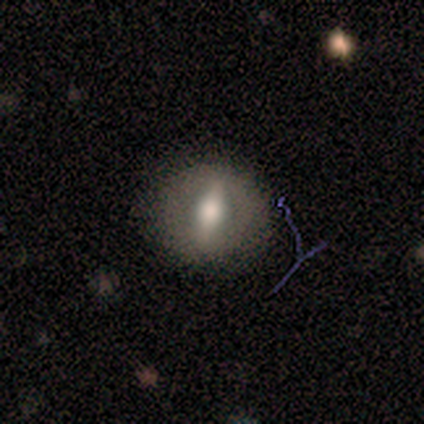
Volunteers were most divided on "smooth or featured": featured or disk: 60%, smooth: 40%, star or artifact: 0%. More confident: edge-on disk — no (100%); merging — none (80%); bar — strong (67%); spiral arms — no (67%); bulge size — large (67%).